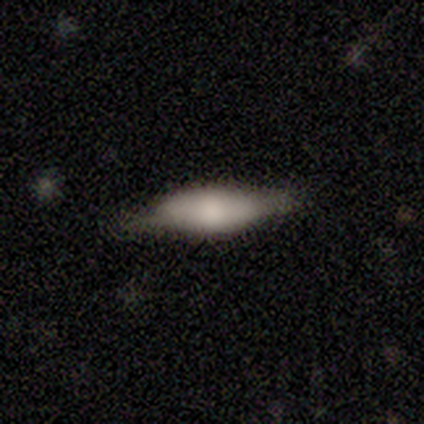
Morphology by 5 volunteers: Smooth or featured?
  - smooth: 100% *
  - featured or disk: 0%
  - star or artifact: 0%
How rounded?
  - in between: 80% *
  - cigar-shaped: 20%
  - round: 0%
Merging?
  - none: 80% *
  - minor disturbance: 20%
  - major disturbance: 0%
  - merger: 0%